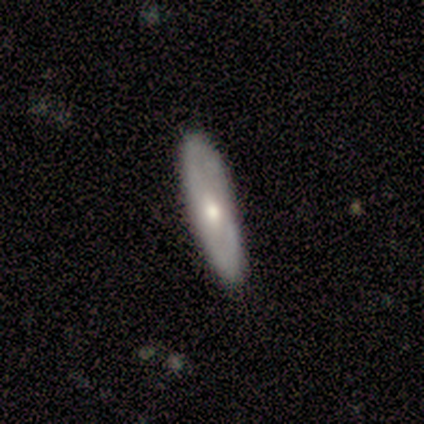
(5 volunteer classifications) Overall: smooth (80%). How rounded: cigar-shaped (100%). Merging: none (100%).